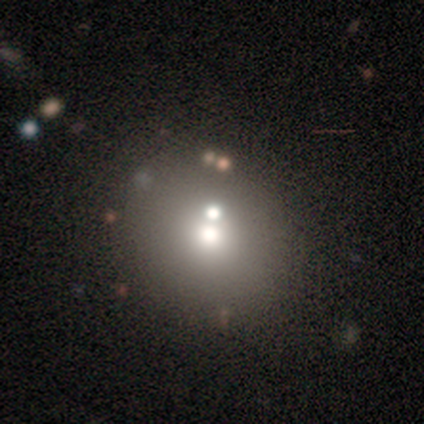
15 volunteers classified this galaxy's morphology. Smooth or featured: smooth — 73% (star or artifact — 20%)
How rounded: round — 82% (in between — 18%)
Merging: merger — 33% (none — 17%)